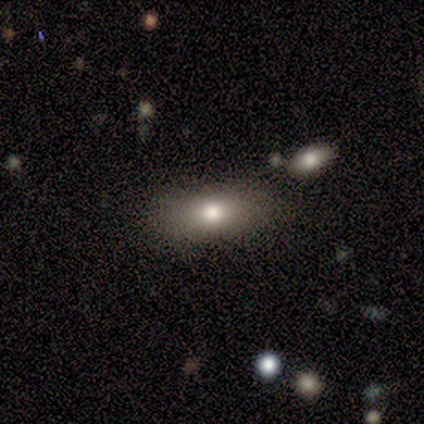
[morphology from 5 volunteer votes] Overall: smooth (100%). How rounded: in between (80%). Merging: none (80%).